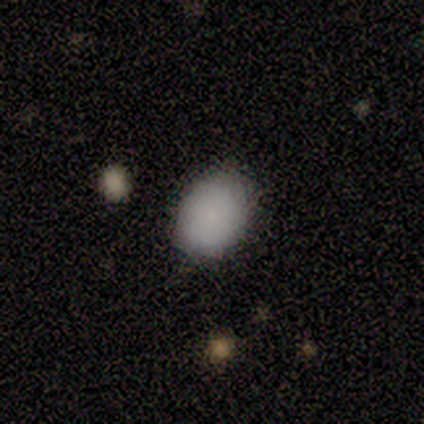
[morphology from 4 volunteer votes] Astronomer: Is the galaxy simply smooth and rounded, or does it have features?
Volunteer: smooth — 75%.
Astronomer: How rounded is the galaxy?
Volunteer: round — 67%.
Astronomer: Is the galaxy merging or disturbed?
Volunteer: none — 100%.